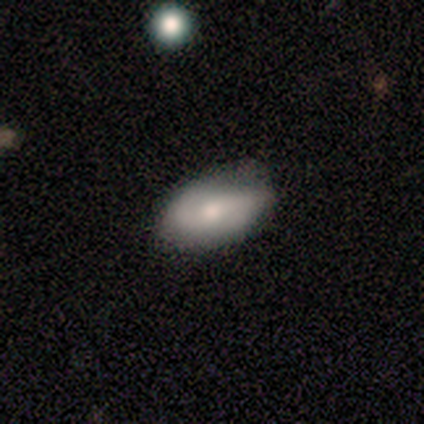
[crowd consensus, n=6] Morphology: type=smooth (50%, tied with featured or disk); roundness=in between (100%); merging=none (67%).